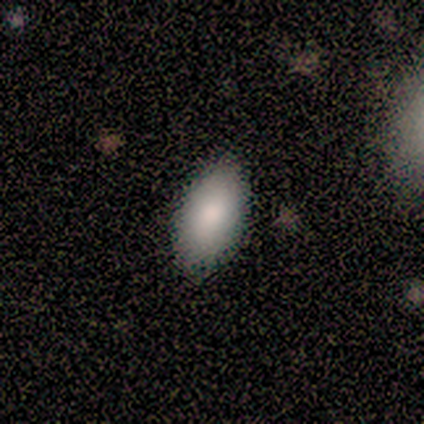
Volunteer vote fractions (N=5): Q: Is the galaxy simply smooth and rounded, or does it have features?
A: smooth — 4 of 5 (80%).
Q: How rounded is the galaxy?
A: in between — 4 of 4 (100%).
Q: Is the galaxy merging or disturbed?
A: none — 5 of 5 (100%).